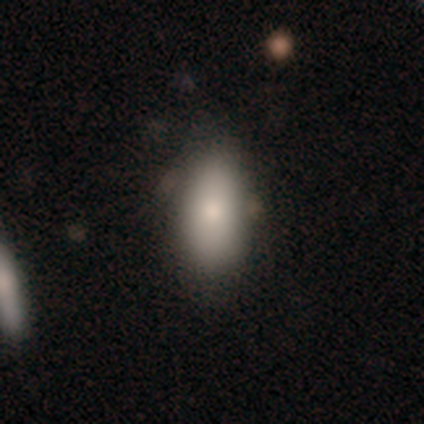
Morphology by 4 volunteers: Smooth or featured: smooth — 50% (featured or disk — 25%)
How rounded: in between — 100%
Merging: none — 100%